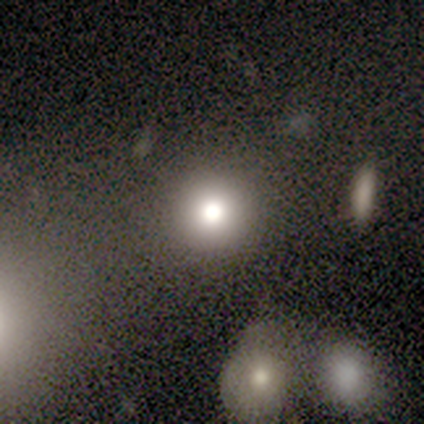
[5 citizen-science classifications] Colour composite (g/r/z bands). It shows a smooth galaxy with no disk features (80%) that is round (75%). Merging: none (75%).